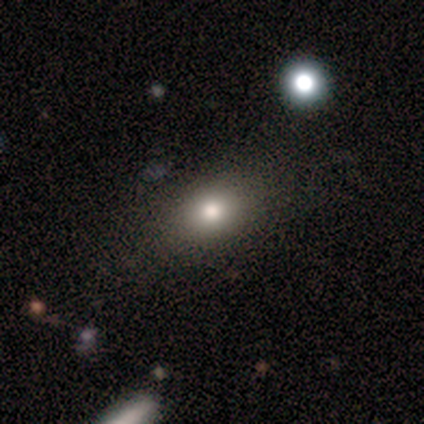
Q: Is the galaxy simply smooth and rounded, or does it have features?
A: smooth — 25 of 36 (69%).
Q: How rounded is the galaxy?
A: in between — 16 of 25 (64%).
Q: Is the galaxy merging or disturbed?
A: none — 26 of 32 (81%).